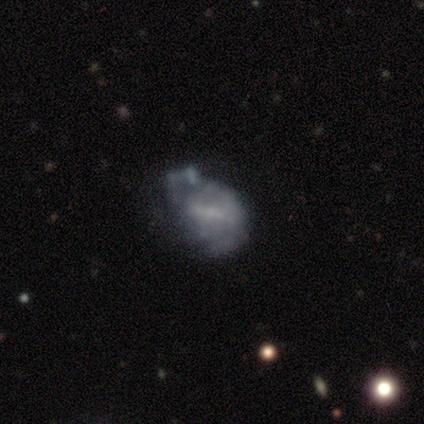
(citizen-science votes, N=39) This is likely a featured or disk galaxy (72%). It is clearly not viewed edge-on (100%). Bar: marginally strong (36%, tied with no). Spiral arm pattern: clearly no (86%). Central bulge: possibly none (50%). Merging: marginally major disturbance (37%).